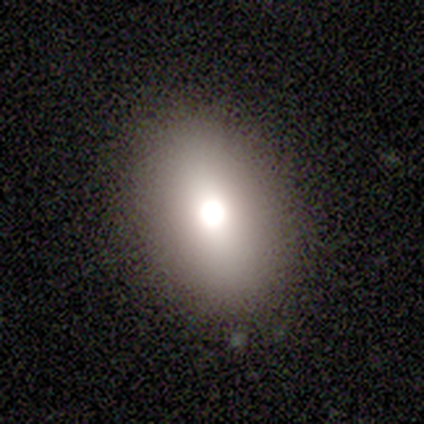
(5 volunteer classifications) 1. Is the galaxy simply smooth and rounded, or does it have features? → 80% smooth, 20% featured or disk, 0% star or artifact.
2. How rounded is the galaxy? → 50% round (tied), 50% in between (tied), 0% cigar-shaped.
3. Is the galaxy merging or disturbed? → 80% none, 20% minor disturbance, 0% major disturbance, 0% merger.